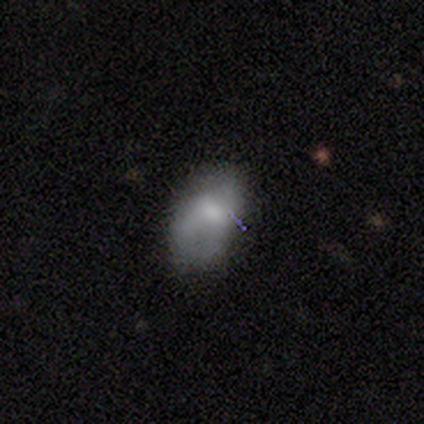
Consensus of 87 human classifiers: Overall: smooth (55%; featured or disk 29%). How rounded: in between (88%). Merging: none (49%; minor disturbance 38%).